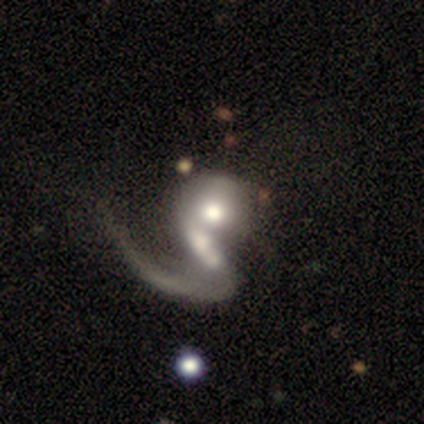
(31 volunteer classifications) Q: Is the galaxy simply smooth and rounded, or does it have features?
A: featured or disk — 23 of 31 (74%).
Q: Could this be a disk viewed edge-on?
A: no — 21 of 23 (91%).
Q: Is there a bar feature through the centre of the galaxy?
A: no — 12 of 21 (57%).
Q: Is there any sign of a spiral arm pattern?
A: yes — 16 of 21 (76%).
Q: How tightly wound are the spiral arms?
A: loose — 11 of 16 (69%).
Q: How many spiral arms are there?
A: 1 — 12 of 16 (75%).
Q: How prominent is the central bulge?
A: moderate — 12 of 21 (57%).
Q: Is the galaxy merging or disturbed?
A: merger — 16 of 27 (59%).